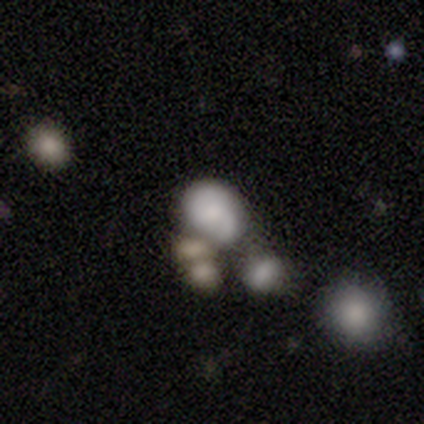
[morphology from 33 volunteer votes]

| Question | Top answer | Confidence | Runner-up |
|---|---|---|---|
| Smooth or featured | smooth | 61% | featured or disk (27%) |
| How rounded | in between | 85% | round (15%) |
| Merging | merger | 52% | — |